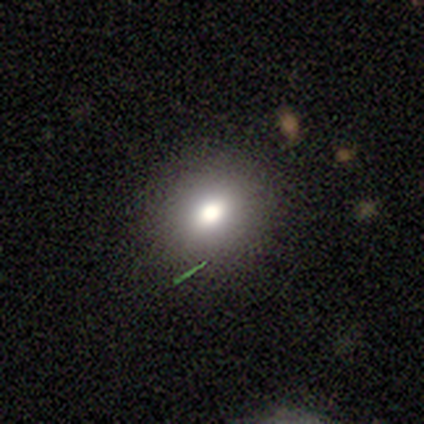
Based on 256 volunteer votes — Smooth or featured?
  - smooth: 70% *
  - star or artifact: 21%
  - featured or disk: 9%
How rounded?
  - round: 74% *
  - in between: 25%
  - cigar-shaped: 1%
Merging?
  - none: 82% *
  - minor disturbance: 12%
  - major disturbance: 4%
  - merger: 2%